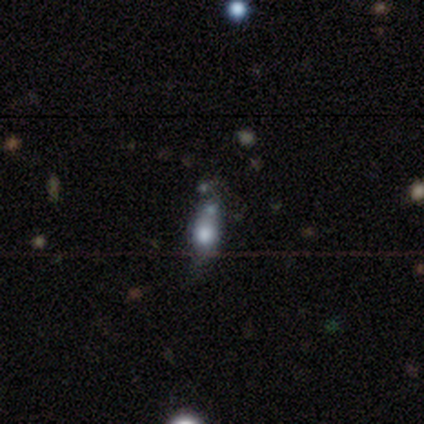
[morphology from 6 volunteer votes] Smooth or featured: smooth — 83% (star or artifact — 17%)
How rounded: in between — 100%
Merging: none — 60% (minor disturbance — 40%)